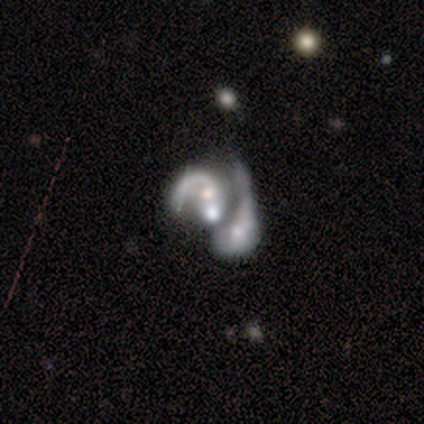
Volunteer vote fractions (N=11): Smooth or featured? featured or disk (91%)
Edge-on disk? no (100%)
Bar? no (80%)
Spiral arms? yes (80%)
Spiral winding? medium (50%)
Spiral arm count? 1 (62%)
Bulge size? large (30%, tied with moderate and none)
Merging? merger (60%)